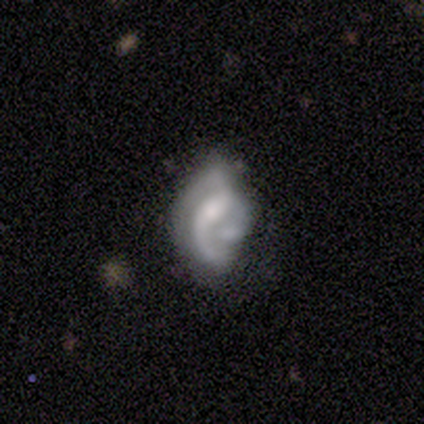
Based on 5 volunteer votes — smooth_or_featured: smooth (p=0.40) [tied with: featured or disk p=0.40]
how_rounded: in between (p=1.00)
merging: none (p=0.25) [tied with: minor disturbance p=0.25, major disturbance p=0.25, merger p=0.25]